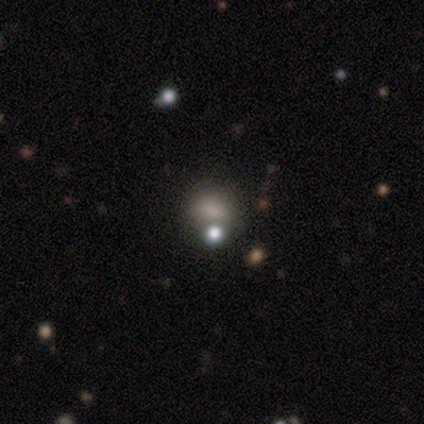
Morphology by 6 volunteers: Q: Smooth or featured?
A: smooth (83%); runner-up: featured or disk (17%)
Q: How rounded?
A: in between (60%); runner-up: round (40%)
Q: Merging?
A: none (67%); runner-up: merger (33%)